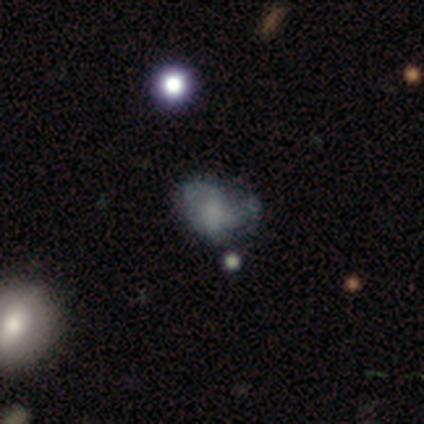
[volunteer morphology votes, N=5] Overall: featured or disk (60%; smooth 20%). Edge-on disk: no (100%). Bar: no (100%). Spiral arms: no (67%; yes 33%). Bulge size: none (100%). Merging: major disturbance (50%; none 25%).